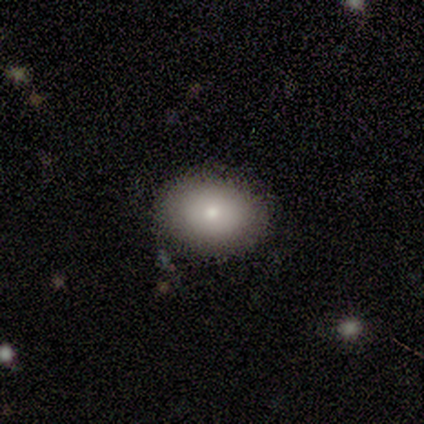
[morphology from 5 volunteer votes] This appears to be a smooth galaxy with no disk features (60%) that is in between round and cigar-shaped (67%). Merging: none (75%).